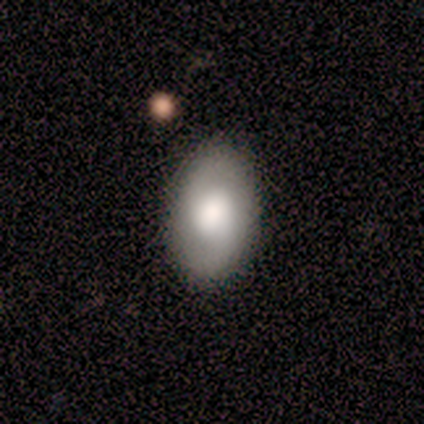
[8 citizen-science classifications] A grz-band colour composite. It shows a smooth galaxy with no disk features (62%) that is in between round and cigar-shaped (100%). Merging: none (75%).